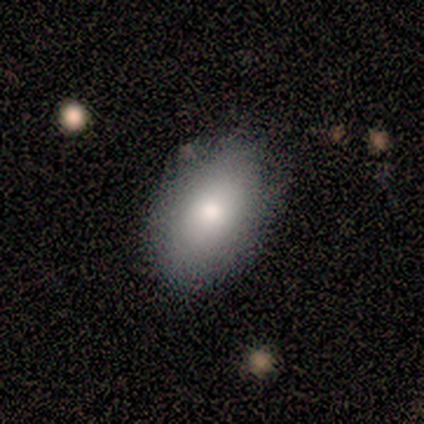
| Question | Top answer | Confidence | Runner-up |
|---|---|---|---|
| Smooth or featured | smooth | 67% | featured or disk (22%) |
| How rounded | in between | 100% | — |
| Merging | none | 75% | minor disturbance (12%) |